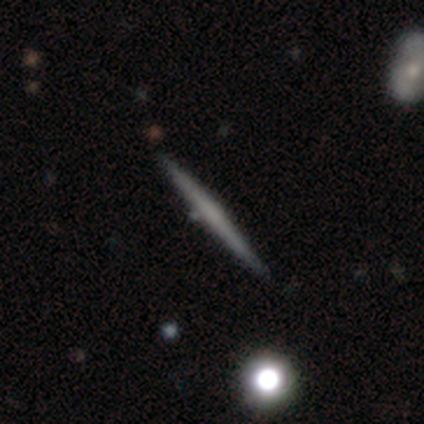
Overall: featured or disk (100%). Edge-on disk: yes (100%). Edge-on bulge: none (100%). Merging: none (100%).